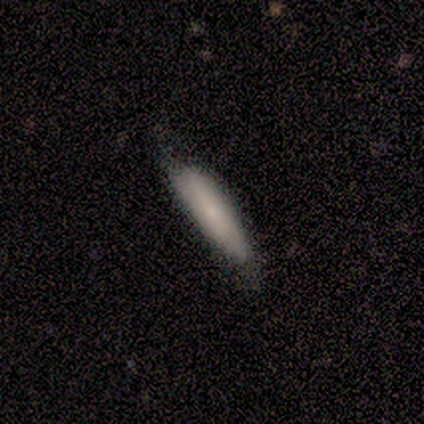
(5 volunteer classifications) smooth 60%, featured or disk 40%, star or artifact 0%. Down the decision tree: how rounded — cigar-shaped (67%); merging — minor disturbance (60%).